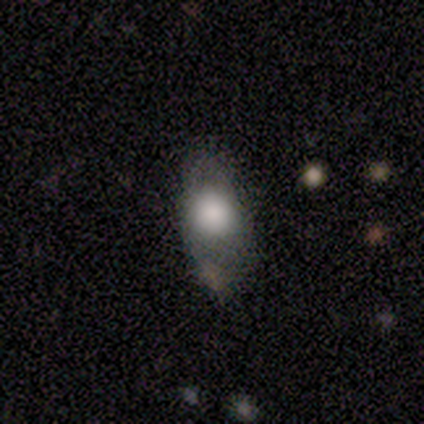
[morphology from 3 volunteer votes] Volunteers were most divided on "smooth or featured": smooth: 67%, featured or disk: 33%, star or artifact: 0%. More confident: how rounded — in between (100%); merging — none (67%).